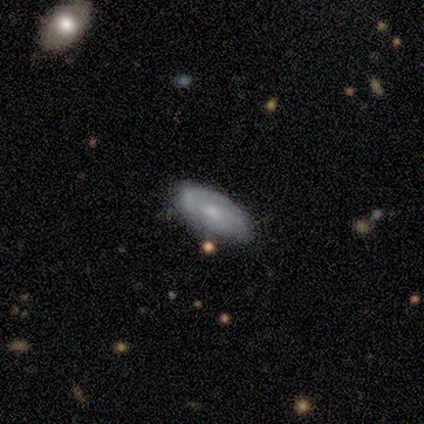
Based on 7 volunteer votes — Morphology: type=featured or disk (57%); edge-on=no (100%); bar=no (100%); spiral arms=yes (50%, tied with no); winding=tight (50%, tied with medium); arm count=2 (50%, tied with can't tell); bulge=small (100%); merging=none (83%).